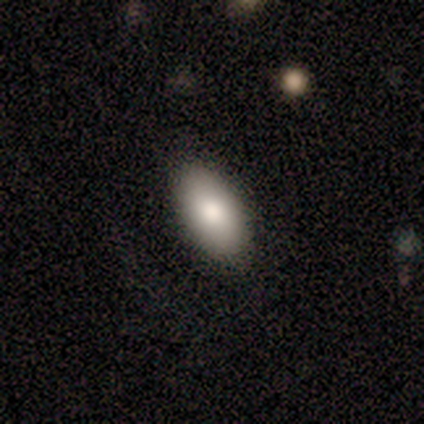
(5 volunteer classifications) smooth 100%, featured or disk 0%, star or artifact 0%. Down the decision tree: how rounded — in between (80%); merging — none (100%).